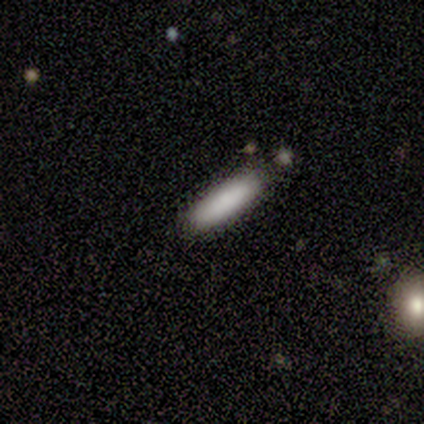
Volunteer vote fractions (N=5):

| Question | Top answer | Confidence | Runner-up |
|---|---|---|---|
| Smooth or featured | smooth | 100% | — |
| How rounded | cigar-shaped | 80% | in between (20%) |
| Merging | merger | 60% | none (40%) |